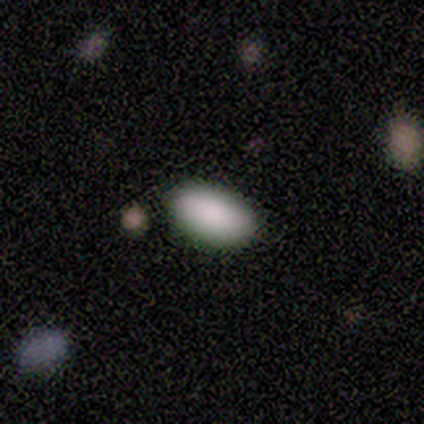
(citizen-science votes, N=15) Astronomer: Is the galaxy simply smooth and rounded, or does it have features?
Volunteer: smooth — 93%.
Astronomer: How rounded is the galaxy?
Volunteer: in between — 93%.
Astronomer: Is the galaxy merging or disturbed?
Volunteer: none — 93%.